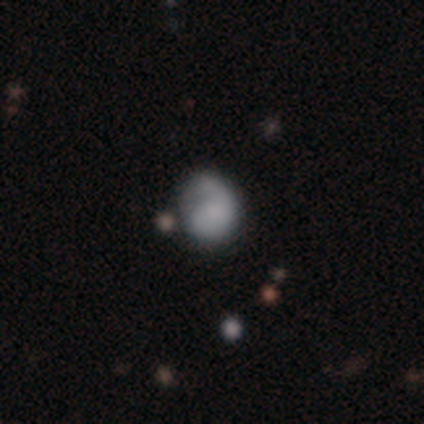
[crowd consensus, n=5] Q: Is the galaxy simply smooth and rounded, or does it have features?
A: smooth — 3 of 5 (60%).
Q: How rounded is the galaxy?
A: in between — 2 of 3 (67%).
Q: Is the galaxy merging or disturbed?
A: minor disturbance — 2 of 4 (50%).